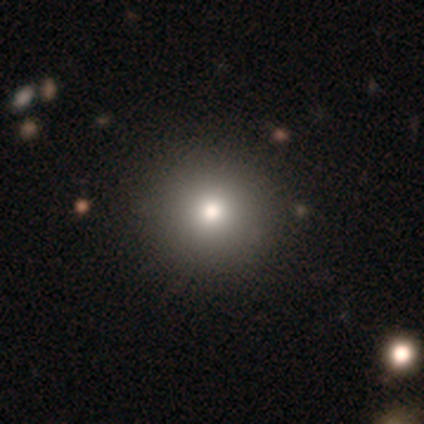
This is likely a smooth galaxy (75%). How rounded: clearly round (100%). Merging: clearly none (94%).